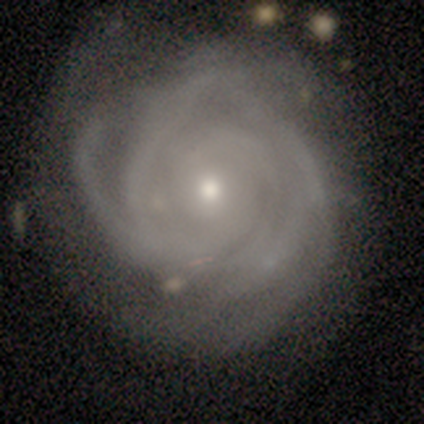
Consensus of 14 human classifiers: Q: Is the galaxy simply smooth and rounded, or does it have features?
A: featured or disk — 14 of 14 (100%).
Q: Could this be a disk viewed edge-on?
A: no — 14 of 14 (100%).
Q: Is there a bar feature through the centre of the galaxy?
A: no — 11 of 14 (79%).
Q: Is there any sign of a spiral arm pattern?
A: yes — 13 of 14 (93%).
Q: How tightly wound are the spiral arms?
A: tight — 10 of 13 (77%).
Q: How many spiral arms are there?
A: can't tell — 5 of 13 (38%).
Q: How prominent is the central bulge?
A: moderate — 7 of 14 (50%, tied with small).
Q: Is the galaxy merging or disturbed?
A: none — 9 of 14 (64%).